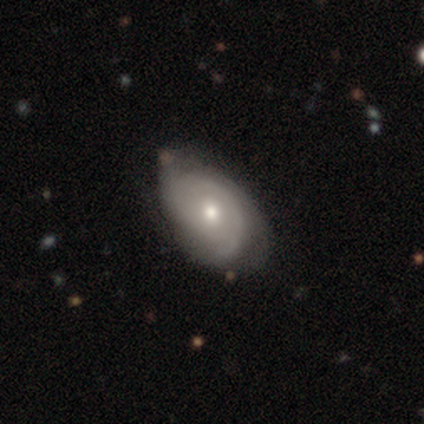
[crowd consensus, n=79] Overall: featured or disk (78%). Edge-on disk: no (98%). Bar: no (80%). Spiral arms: yes (82%). Spiral arm count: can't tell (52%; 2 30%). Spiral winding: tight (66%). Bulge size: moderate (61%; small 34%). Merging: none (29%; minor disturbance 15%).